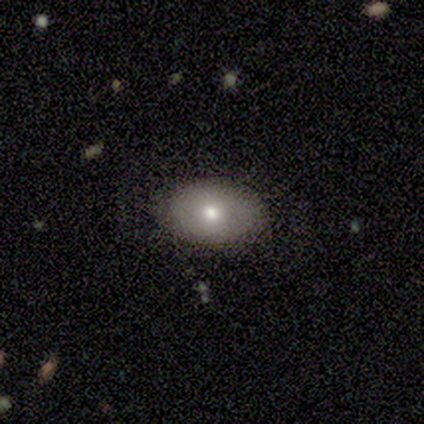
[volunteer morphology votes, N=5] This appears to be a smooth galaxy with no disk features (60%) that is in between round and cigar-shaped (67%). Merging: none (75%).